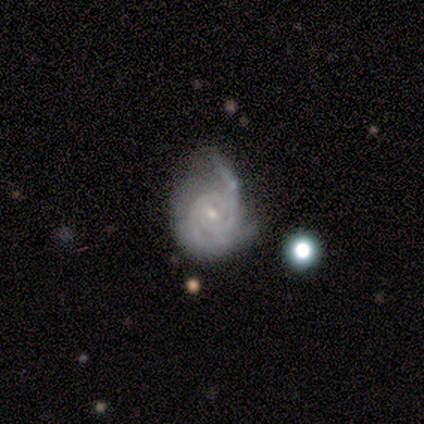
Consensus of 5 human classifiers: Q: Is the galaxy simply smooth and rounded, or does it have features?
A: featured or disk — 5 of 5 (100%).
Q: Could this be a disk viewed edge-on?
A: no — 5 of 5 (100%).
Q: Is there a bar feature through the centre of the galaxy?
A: weak — 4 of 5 (80%).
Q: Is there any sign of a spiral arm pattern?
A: yes — 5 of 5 (100%).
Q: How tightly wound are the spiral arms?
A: tight — 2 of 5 (40%, tied with loose).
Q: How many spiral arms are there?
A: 2 — 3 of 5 (60%).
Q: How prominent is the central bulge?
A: small — 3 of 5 (60%).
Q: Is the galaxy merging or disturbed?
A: none — 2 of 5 (40%, tied with major disturbance).